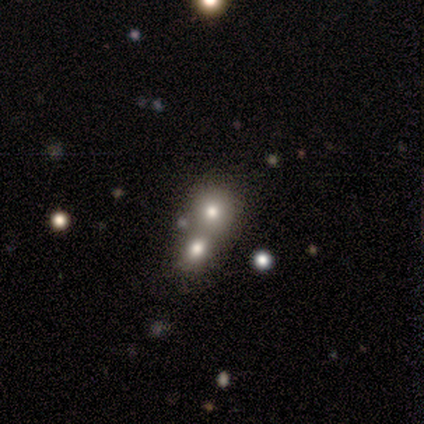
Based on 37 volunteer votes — A smooth galaxy with no disk features (62%) that is round (83%). Merging: merger (57%).